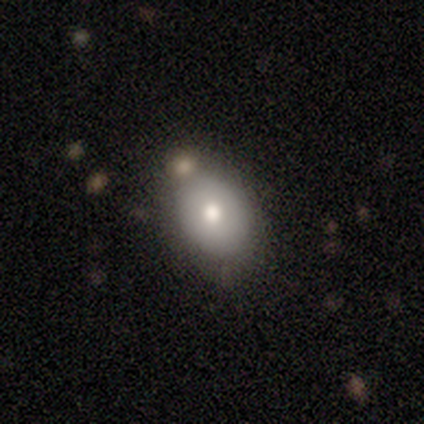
Smooth or featured? smooth (80%)
How rounded? in between (75%)
Merging? none (80%)